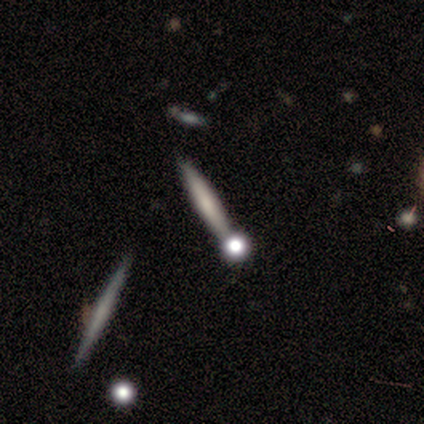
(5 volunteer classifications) Volunteers were most divided on "smooth or featured" (2-way tie): smooth: 40%, star or artifact: 40%, featured or disk: 20%. More confident: how rounded — cigar-shaped (100%); merging — none (67%).